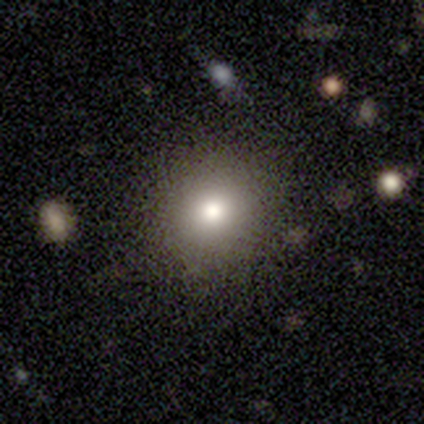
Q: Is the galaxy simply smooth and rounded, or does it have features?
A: smooth — 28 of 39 (72%).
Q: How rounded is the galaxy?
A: round — 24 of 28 (86%).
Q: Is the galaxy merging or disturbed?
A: none — 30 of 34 (88%).